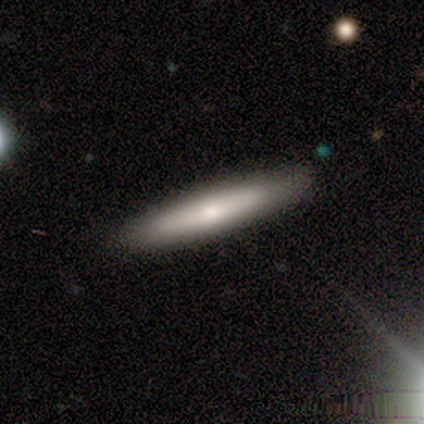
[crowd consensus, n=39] Morphology: type=smooth (51%); roundness=cigar-shaped (95%); merging=none (92%).